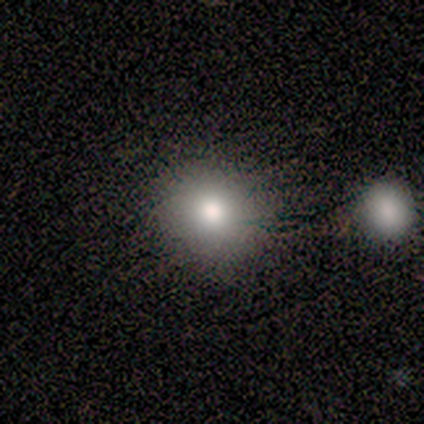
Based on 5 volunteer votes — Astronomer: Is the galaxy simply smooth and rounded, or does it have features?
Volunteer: smooth — 60%.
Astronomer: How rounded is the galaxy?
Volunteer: round — 67%.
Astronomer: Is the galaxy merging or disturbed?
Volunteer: none — 25%, tied with minor disturbance, major disturbance and merger at 25%.